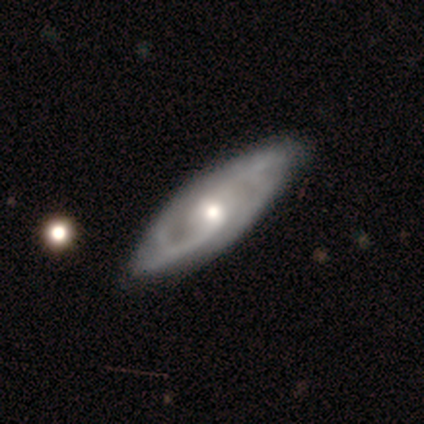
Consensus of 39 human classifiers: This appears to be a featured or disk galaxy (87%) with no bar (59%), 2 (52%) tight (60%) spiral arms (93%) and a moderate central bulge (56%). Merging: none (51%).